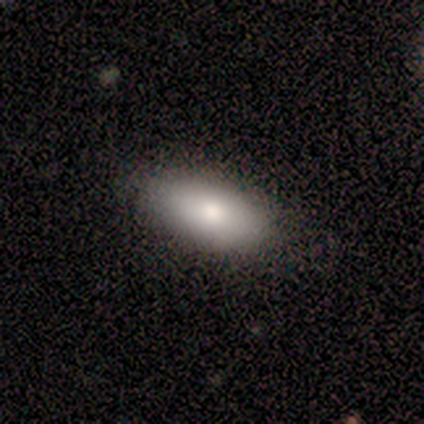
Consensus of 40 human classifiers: smooth_or_featured: smooth (p=0.85) [alt: featured or disk p=0.10]
how_rounded: in between (p=0.97) [alt: cigar-shaped p=0.03]
merging: none (p=0.84) [alt: minor disturbance p=0.11]